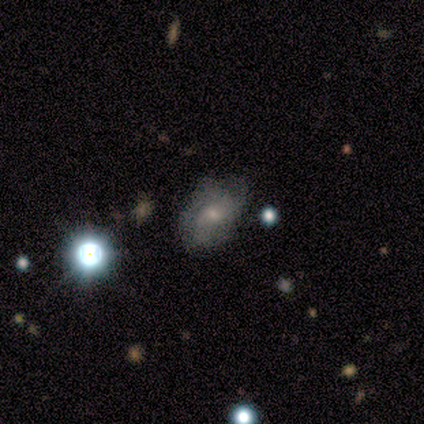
smooth_or_featured: featured or disk (p=0.53) [alt: smooth p=0.40]
disk_edge_on: no (p=0.95) [alt: yes p=0.05]
bar: no (p=0.70) [alt: weak p=0.20]
has_spiral_arms: yes (p=0.55) [alt: no p=0.45]
spiral_winding: medium (p=0.45) [alt: loose p=0.36]
spiral_arm_count: can't tell (p=0.55) [alt: 3 p=0.27]
bulge_size: small (p=0.45) [alt: moderate p=0.35]
merging: none (p=0.73) [alt: minor disturbance p=0.14]